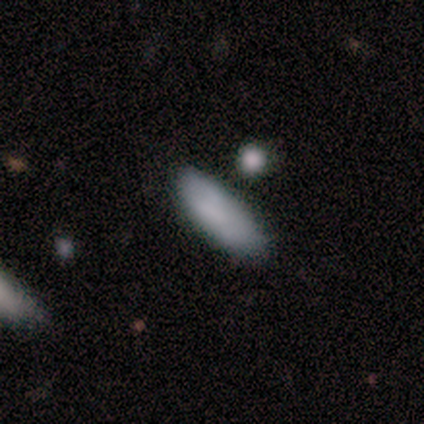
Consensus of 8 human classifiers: Q: Smooth or featured?
A: smooth (75%); runner-up: featured or disk (25%)
Q: How rounded?
A: in between (50%); tied with: cigar-shaped (50%)
Q: Merging?
A: none (75%); runner-up: major disturbance (12%)